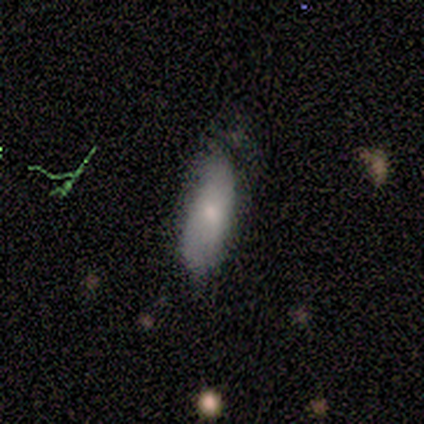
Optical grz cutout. It shows a smooth galaxy with no disk features (80%) that is in between round and cigar-shaped (75%). Merging: none (67%).